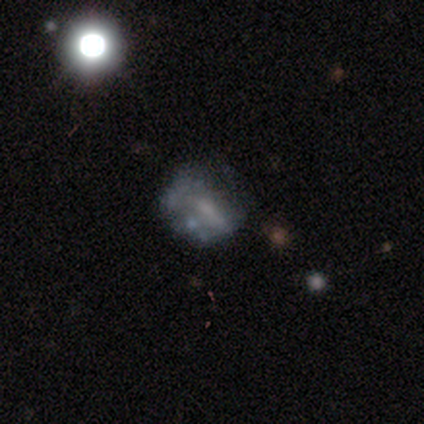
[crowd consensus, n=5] smooth-or-featured: smooth: 60% | star or artifact: 40% | featured or disk: 0%
  how-rounded: round: 67% | in between: 33% | cigar-shaped: 0%
  merging: major disturbance: 67% | none: 33% | minor disturbance: 0% | merger: 0%